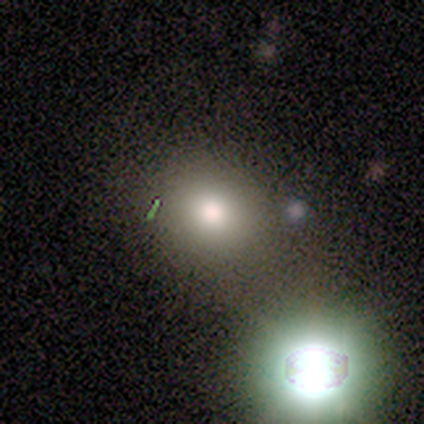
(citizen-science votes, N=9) smooth-or-featured: smooth: 67% | featured or disk: 22% | star or artifact: 11%
  how-rounded: round: 100% | in between: 0% | cigar-shaped: 0%
  merging: none: 38% | minor disturbance: 25% | merger: 25% | major disturbance: 12%